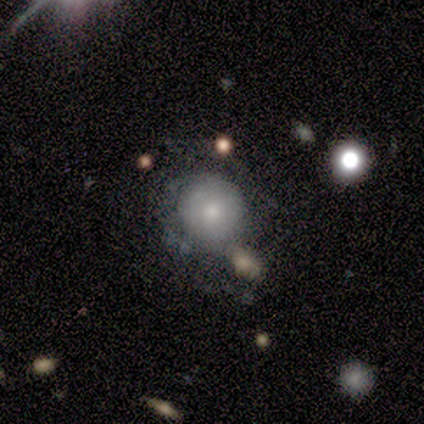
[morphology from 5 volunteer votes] Q: Smooth or featured?
A: smooth (80%); runner-up: featured or disk (20%)
Q: How rounded?
A: round (100%)
Q: Merging?
A: none (60%); runner-up: minor disturbance (20%)